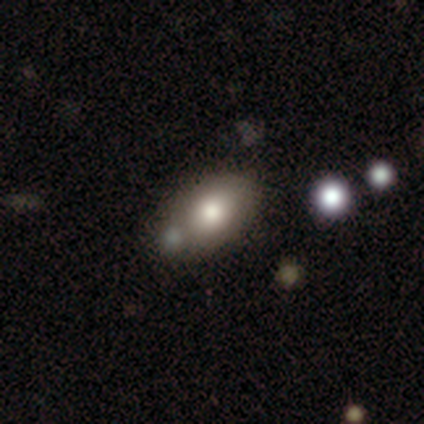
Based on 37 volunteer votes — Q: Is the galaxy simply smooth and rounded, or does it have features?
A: smooth — 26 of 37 (70%).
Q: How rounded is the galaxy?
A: in between — 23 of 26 (88%).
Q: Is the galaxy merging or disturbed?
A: none — 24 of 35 (69%).